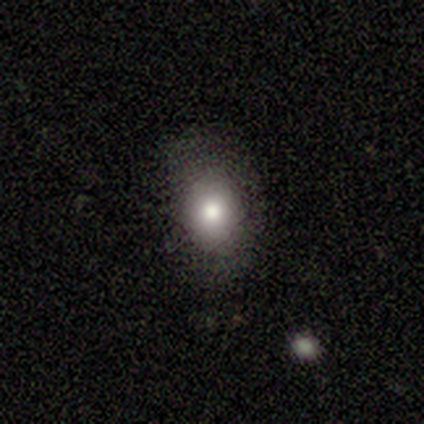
smooth_or_featured: smooth (p=0.60) [alt: star or artifact p=0.40]
how_rounded: in between (p=1.00)
merging: none (p=1.00)